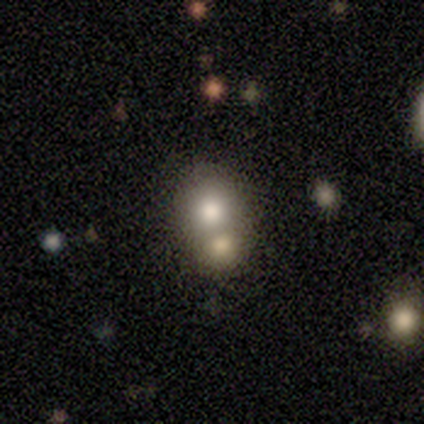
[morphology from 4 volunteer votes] smooth 100%, featured or disk 0%, star or artifact 0%. Down the decision tree: how rounded — round (100%); merging — merger (75%).